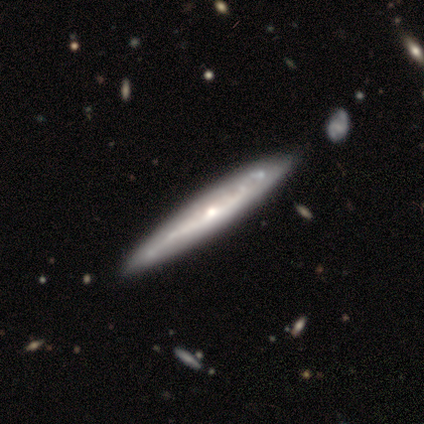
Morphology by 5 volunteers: type=featured or disk (60%); edge-on=yes (100%); edge-on bulge=rounded (67%); merging=none (75%).